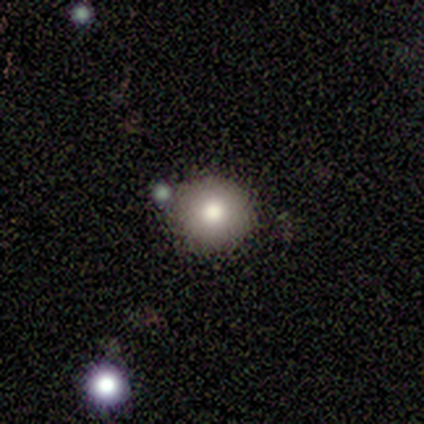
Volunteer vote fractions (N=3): Smooth or featured?
  - smooth: 100% *
  - featured or disk: 0%
  - star or artifact: 0%
How rounded?
  - round: 100% *
  - in between: 0%
  - cigar-shaped: 0%
Merging?
  - none: 33% * (tied)
  - minor disturbance: 33% * (tied)
  - merger: 33% * (tied)
  - major disturbance: 0%